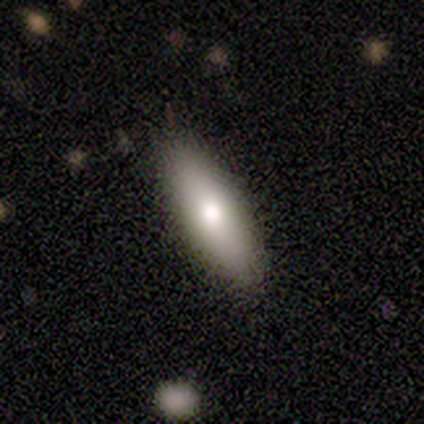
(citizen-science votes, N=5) Smooth or featured: smooth — 80% (featured or disk — 20%)
How rounded: cigar-shaped — 100%
Merging: none — 80% (minor disturbance — 20%)